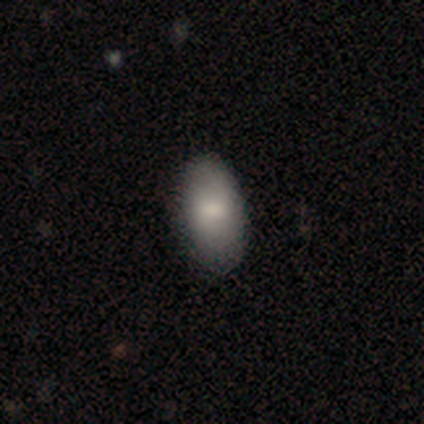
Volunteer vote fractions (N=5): Q: Smooth or featured?
A: smooth (100%)
Q: How rounded?
A: in between (100%)
Q: Merging?
A: none (80%); runner-up: minor disturbance (20%)